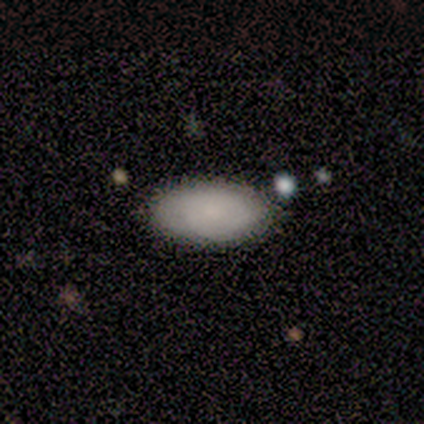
This appears to be a smooth galaxy with no disk features (90%) that is in between round and cigar-shaped (89%). Merging: none (100%).